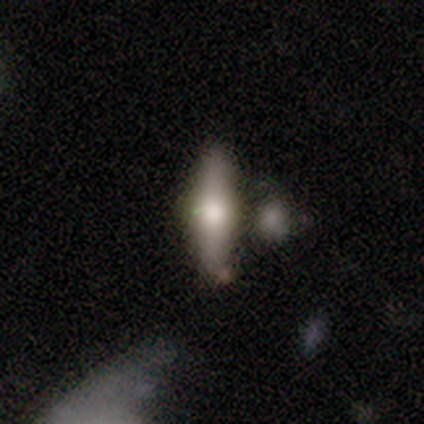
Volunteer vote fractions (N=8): smooth-or-featured: smooth: 62% | featured or disk: 38% | star or artifact: 0%
  how-rounded: cigar-shaped: 60% | in between: 40% | round: 0%
  merging: none: 38% (tied) | minor disturbance: 38% (tied) | merger: 25% | major disturbance: 0%